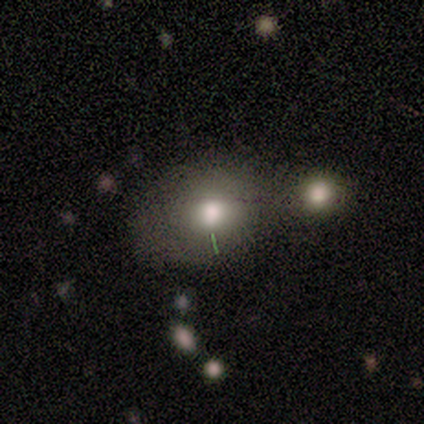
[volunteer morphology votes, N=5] smooth_or_featured: smooth (p=0.60) [alt: featured or disk p=0.20]
how_rounded: round (p=1.00)
merging: none (p=0.75) [alt: major disturbance p=0.25]